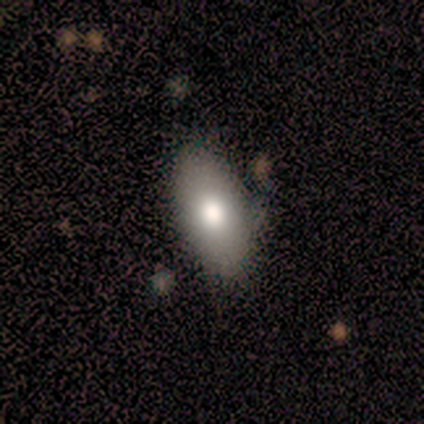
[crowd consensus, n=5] Morphology: type=smooth (100%); roundness=in between (100%); merging=none (80%).